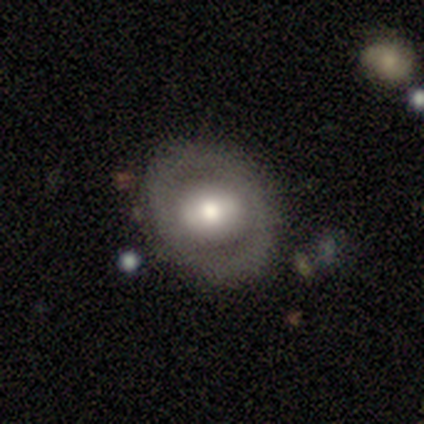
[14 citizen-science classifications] Smooth or featured? 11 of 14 (79%) said featured or disk. Edge-on disk? 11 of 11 (100%) said no. Bar? 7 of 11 (64%) said no. Spiral arms? 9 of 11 (82%) said no. Bulge size? 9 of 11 (82%) said moderate. Merging? 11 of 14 (79%) said none.